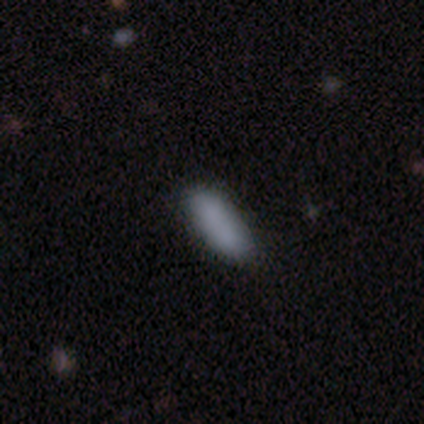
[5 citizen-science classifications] Volunteers were most divided on "merging": none: 60%, minor disturbance: 20%, merger: 20%, major disturbance: 0%. More confident: smooth or featured — smooth (100%); how rounded — in between (80%).